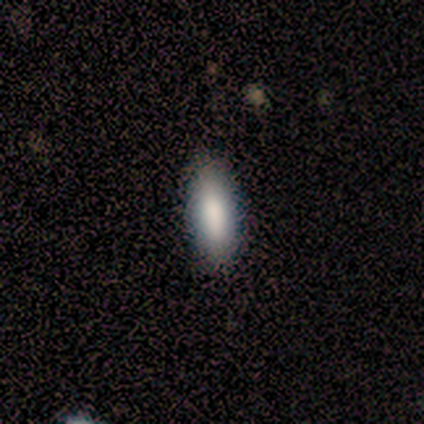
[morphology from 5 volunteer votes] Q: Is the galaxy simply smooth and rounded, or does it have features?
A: smooth — 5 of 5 (100%).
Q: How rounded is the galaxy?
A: in between — 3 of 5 (60%).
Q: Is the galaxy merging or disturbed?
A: none — 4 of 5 (80%).